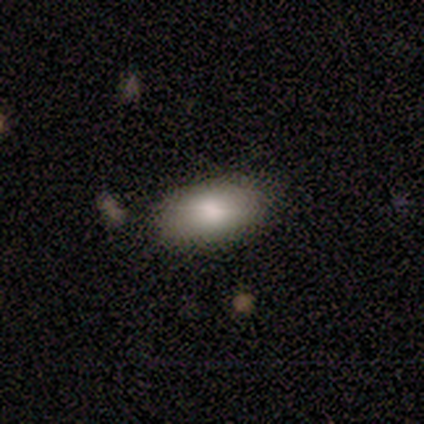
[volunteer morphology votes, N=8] smooth 100%, featured or disk 0%, star or artifact 0%. Down the decision tree: how rounded — in between (100%); merging — none (75%).